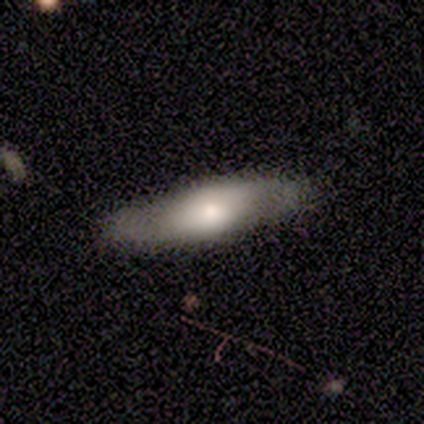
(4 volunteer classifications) smooth-or-featured: smooth: 50% (tied) | featured or disk: 50% (tied) | star or artifact: 0%
  how-rounded: cigar-shaped: 100% | round: 0% | in between: 0%
  merging: none: 100% | minor disturbance: 0% | major disturbance: 0% | merger: 0%